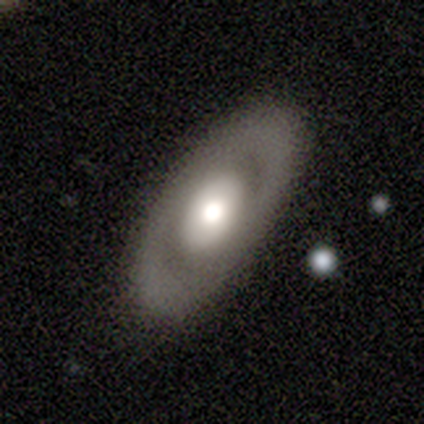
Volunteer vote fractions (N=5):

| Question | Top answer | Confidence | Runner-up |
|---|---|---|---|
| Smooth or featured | smooth | 80% | featured or disk (20%) |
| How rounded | in between | 100% | — |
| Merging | none | 100% | — |